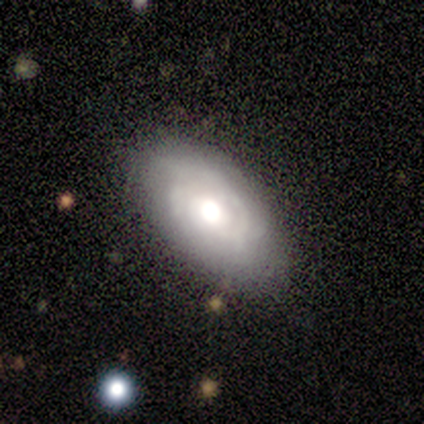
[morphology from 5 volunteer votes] Smooth or featured: featured or disk — 100%
Edge-on disk: no — 100%
Bar: no — 80% (strong — 20%)
Spiral arms: yes — 80% (no — 20%)
Spiral winding: tight — 50% (tied with loose — 50%)
Spiral arm count: can't tell — 75% (2 — 25%)
Bulge size: moderate — 60% (dominant — 20%)
Merging: none — 100%